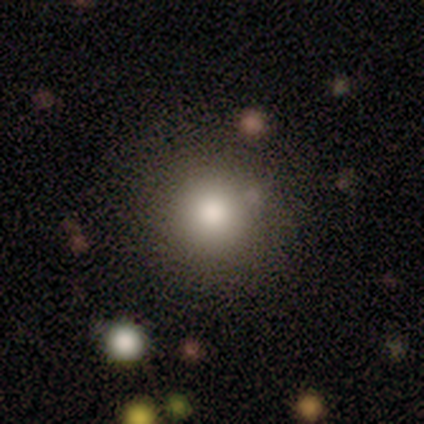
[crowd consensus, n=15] Morphology: type=smooth (100%); roundness=round (100%); merging=none (80%).